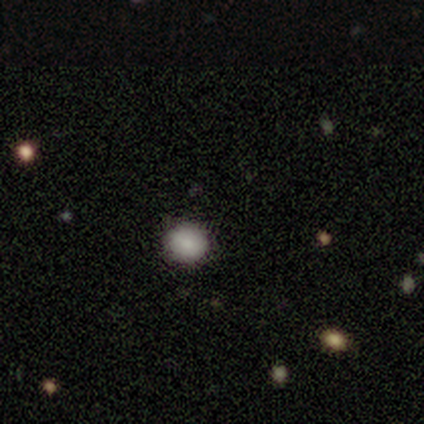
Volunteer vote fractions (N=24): smooth_or_featured: smooth (p=0.67) [alt: star or artifact p=0.25]
how_rounded: round (p=0.88) [alt: in between p=0.12]
merging: none (p=1.00)